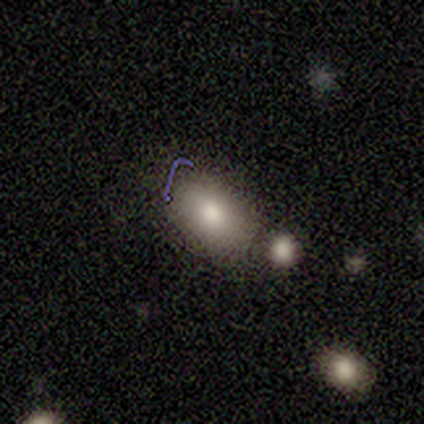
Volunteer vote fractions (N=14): Q: Smooth or featured?
A: smooth (93%); runner-up: star or artifact (7%)
Q: How rounded?
A: in between (85%); runner-up: round (8%)
Q: Merging?
A: none (77%); runner-up: minor disturbance (15%)